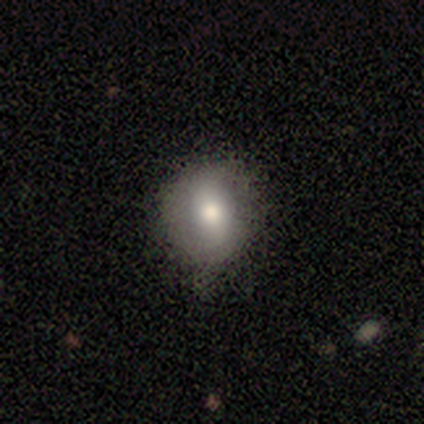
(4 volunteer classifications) Smooth or featured: smooth — 75% (featured or disk — 25%)
How rounded: round — 67% (in between — 33%)
Merging: none — 75% (minor disturbance — 25%)